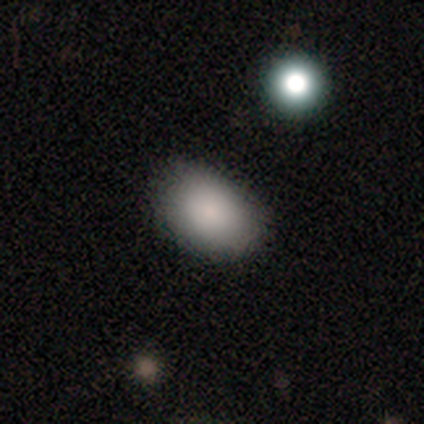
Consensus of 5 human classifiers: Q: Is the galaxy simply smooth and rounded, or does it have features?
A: smooth — 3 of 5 (60%).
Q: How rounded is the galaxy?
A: in between — 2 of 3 (67%).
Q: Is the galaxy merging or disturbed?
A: none — 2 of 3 (67%).